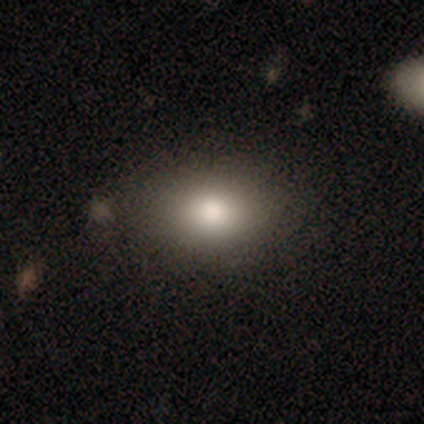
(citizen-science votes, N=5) smooth 100%, featured or disk 0%, star or artifact 0%. Down the decision tree: how rounded — in between (80%); merging — none (80%).